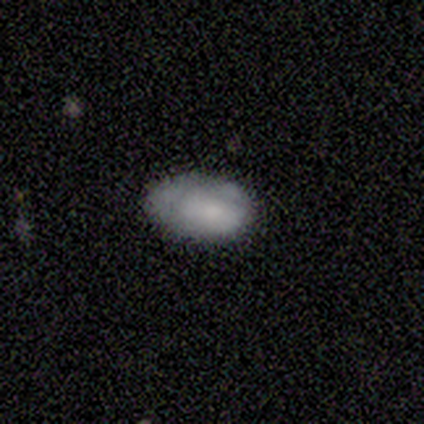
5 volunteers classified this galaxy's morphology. Smooth or featured: smooth — 80% (featured or disk — 20%)
How rounded: in between — 100%
Merging: none — 40% (tied with minor disturbance — 40%)